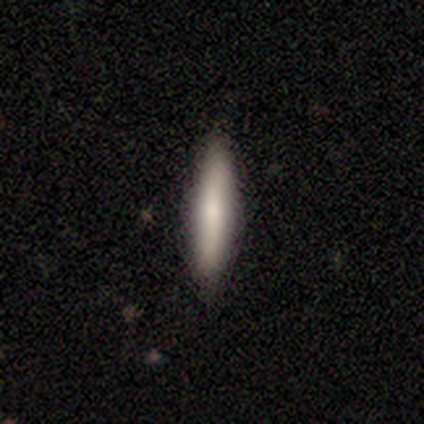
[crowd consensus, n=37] smooth-or-featured: smooth: 68% | featured or disk: 24% | star or artifact: 8%
  how-rounded: cigar-shaped: 88% | in between: 12% | round: 0%
  merging: none: 91% | minor disturbance: 9% | major disturbance: 0% | merger: 0%